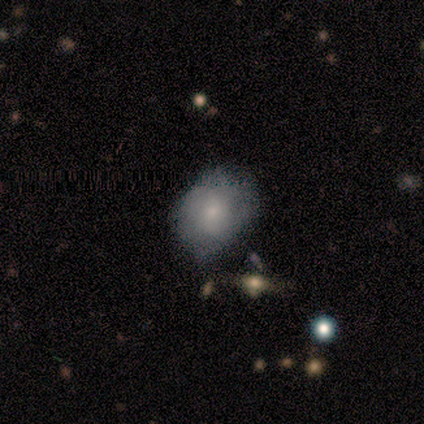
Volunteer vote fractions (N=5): smooth_or_featured: smooth (p=0.80) [alt: featured or disk p=0.20]
how_rounded: round (p=0.75) [alt: in between p=0.25]
merging: none (p=1.00)